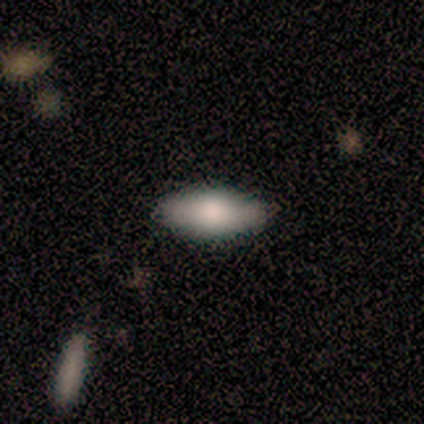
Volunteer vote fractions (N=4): smooth-or-featured: smooth: 50% (tied) | featured or disk: 50% (tied) | star or artifact: 0%
  how-rounded: in between: 100% | round: 0% | cigar-shaped: 0%
  merging: none: 100% | minor disturbance: 0% | major disturbance: 0% | merger: 0%